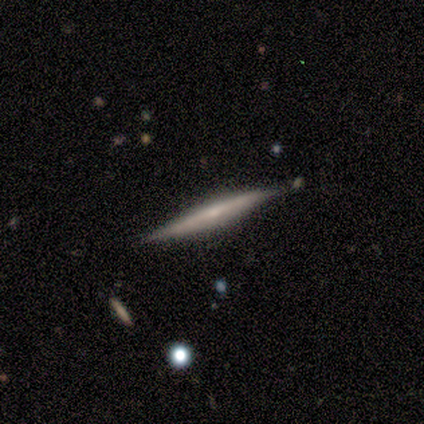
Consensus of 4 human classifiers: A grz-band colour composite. It shows a smooth galaxy with no disk features (50%, tied with featured or disk) that is cigar-shaped (100%). Merging: none (100%).